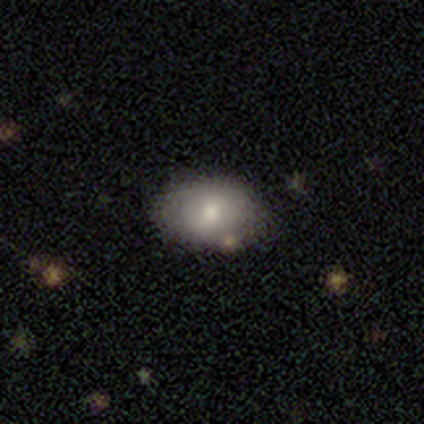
Smooth or featured? 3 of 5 (60%) said smooth. How rounded? 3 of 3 (100%) said in between. Merging? 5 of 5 (100%) said none.